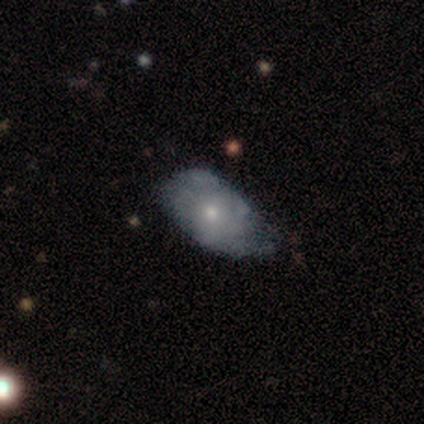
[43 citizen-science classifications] Smooth or featured?
  - smooth: 51% *
  - featured or disk: 44%
  - star or artifact: 5%
How rounded?
  - in between: 95% *
  - cigar-shaped: 5%
  - round: 0%
Merging?
  - minor disturbance: 68% *
  - none: 17%
  - major disturbance: 15%
  - merger: 0%